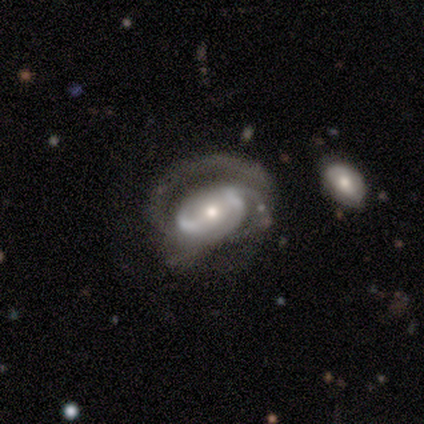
Morphology: type=featured or disk (89%); edge-on=no (97%); bar=no (58%); spiral arms=yes (84%); winding=medium (46%); arm count=2 (50%); bulge=moderate (52%); merging=none (44%).